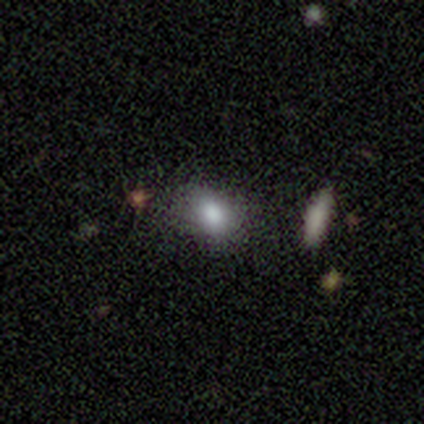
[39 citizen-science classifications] Overall: smooth (74%). How rounded: in between (83%). Merging: none (73%).